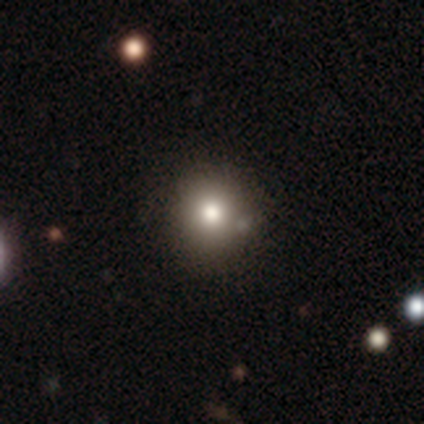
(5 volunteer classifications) Smooth or featured? 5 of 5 (100%) said smooth. How rounded? 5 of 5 (100%) said round. Merging? 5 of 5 (100%) said none.